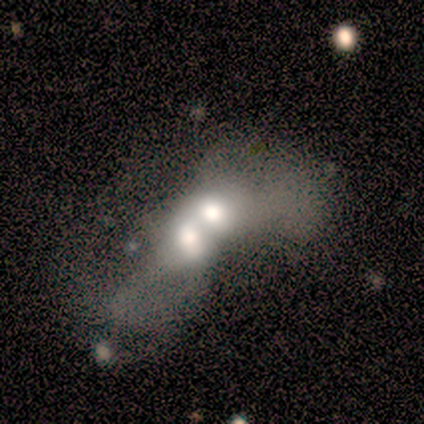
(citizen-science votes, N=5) smooth 60%, featured or disk 20%, star or artifact 20%. Down the decision tree: how rounded — in between (67%); merging — merger (75%).